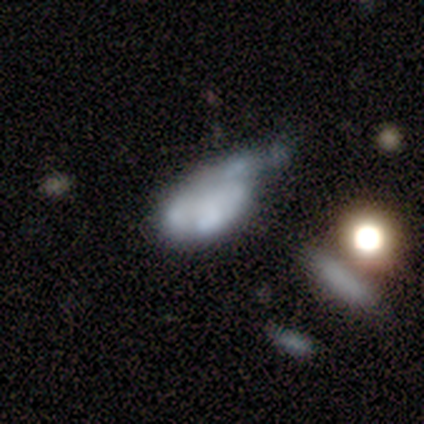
This appears to be a smooth galaxy with no disk features (33%, tied with featured or disk and star or artifact) that is in between round and cigar-shaped (100%). Merging: none (50%, tied with minor disturbance).